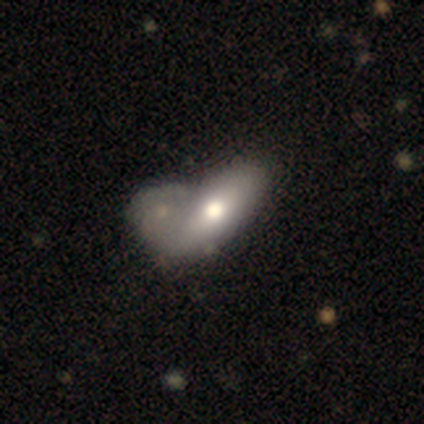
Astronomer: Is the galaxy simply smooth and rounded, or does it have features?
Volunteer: featured or disk — 60% (runner-up: smooth, 40%).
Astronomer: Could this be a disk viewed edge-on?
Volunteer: no — 100%.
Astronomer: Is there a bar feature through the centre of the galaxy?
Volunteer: no — 100%.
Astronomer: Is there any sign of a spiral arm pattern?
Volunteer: no — 100%.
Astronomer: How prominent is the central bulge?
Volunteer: moderate — 67%.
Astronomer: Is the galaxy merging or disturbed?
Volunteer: none — 60% (runner-up: merger, 40%).